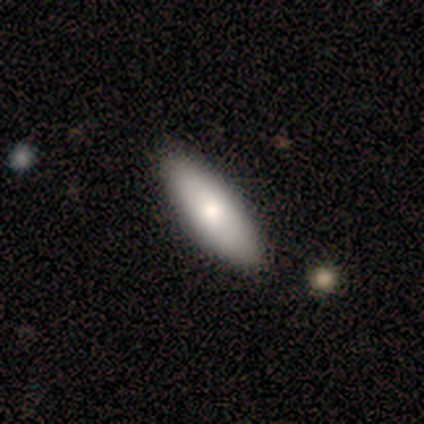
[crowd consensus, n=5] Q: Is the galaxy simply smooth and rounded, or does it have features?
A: smooth — 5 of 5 (100%).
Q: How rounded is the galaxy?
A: in between — 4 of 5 (80%).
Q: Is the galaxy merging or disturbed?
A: none — 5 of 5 (100%).